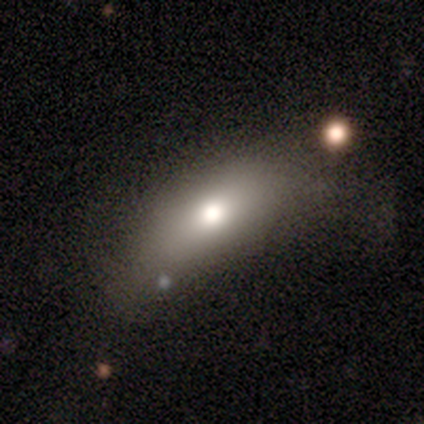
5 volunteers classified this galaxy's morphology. Q: Smooth or featured?
A: smooth (100%)
Q: How rounded?
A: in between (100%)
Q: Merging?
A: minor disturbance (60%); runner-up: none (40%)